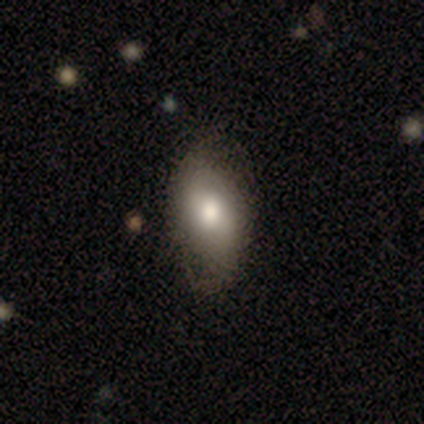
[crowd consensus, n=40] Smooth or featured? 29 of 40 (72%) said smooth. How rounded? 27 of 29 (93%) said in between. Merging? 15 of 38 (39%, tied with minor disturbance) said none.